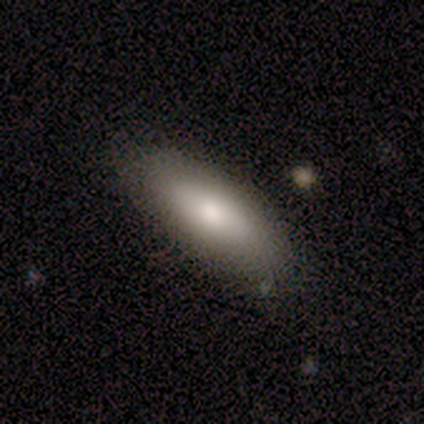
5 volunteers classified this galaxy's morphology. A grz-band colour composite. It shows a smooth galaxy with no disk features (80%) that is in between round and cigar-shaped (75%). Merging: none (100%).